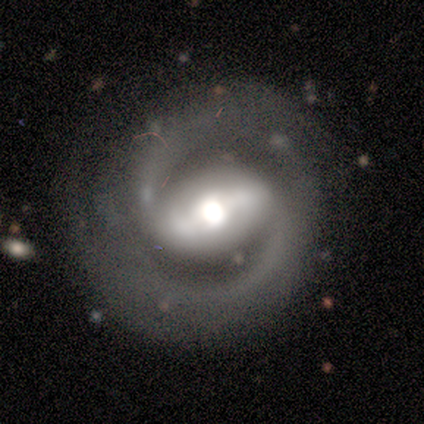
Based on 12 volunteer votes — This is clearly a featured or disk galaxy (92%). It is clearly not viewed edge-on (100%). Bar: likely strong (73%). Spiral arm pattern: clearly yes (100%). Spiral arm count: clearly 2 (100%). Spiral winding: likely medium (64%). Central bulge: likely moderate (64%). Merging: clearly none (91%).